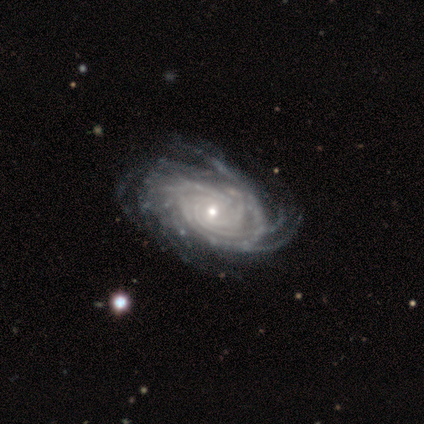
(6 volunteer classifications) Smooth or featured? featured or disk (100%)
Edge-on disk? no (100%)
Bar? no (83%)
Spiral arms? yes (100%)
Spiral winding? tight (67%)
Spiral arm count? more than 4 (83%)
Bulge size? small (67%)
Merging? none (67%)